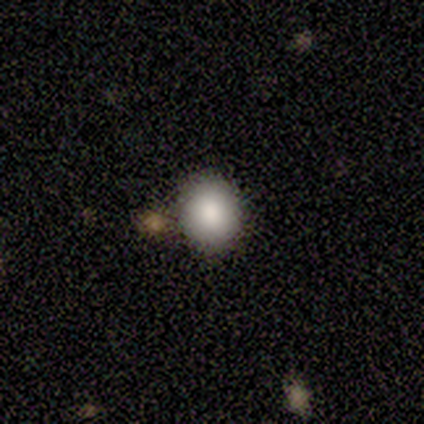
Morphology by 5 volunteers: This is clearly a smooth galaxy (80%). How rounded: clearly round (100%). Merging: likely none (75%).